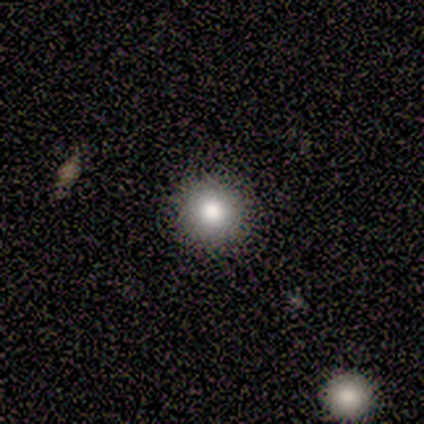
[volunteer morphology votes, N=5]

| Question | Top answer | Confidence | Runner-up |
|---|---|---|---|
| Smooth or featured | smooth | 100% | — |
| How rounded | round | 100% | — |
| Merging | none | 100% | — |